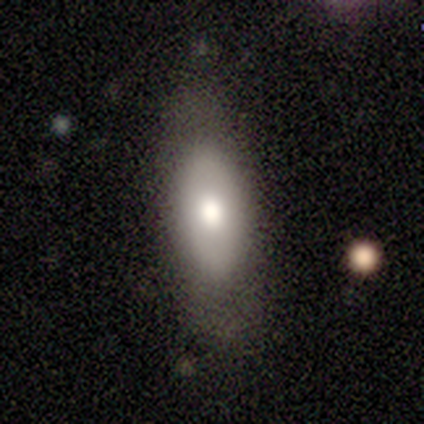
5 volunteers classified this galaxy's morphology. featured or disk 60%, smooth 40%, star or artifact 0%. Down the decision tree: edge-on disk — no (100%); bar — no (100%); spiral arms — no (67%); bulge size — large (33%, tied with moderate and small); merging — none (100%).